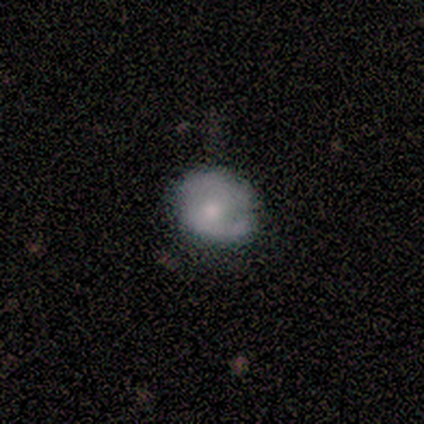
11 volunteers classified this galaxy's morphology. A smooth galaxy with no disk features (55%) that is round (67%). Merging: none (75%).